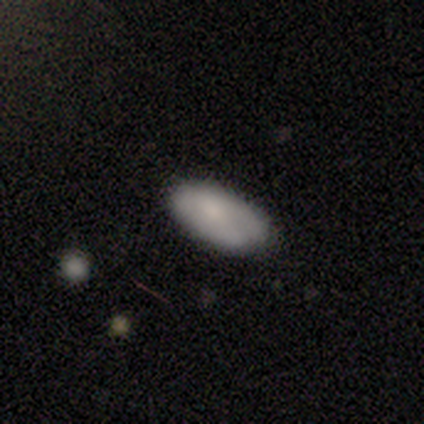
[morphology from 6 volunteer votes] Smooth or featured: smooth — 83% (star or artifact — 17%)
How rounded: in between — 100%
Merging: none — 60% (minor disturbance — 40%)